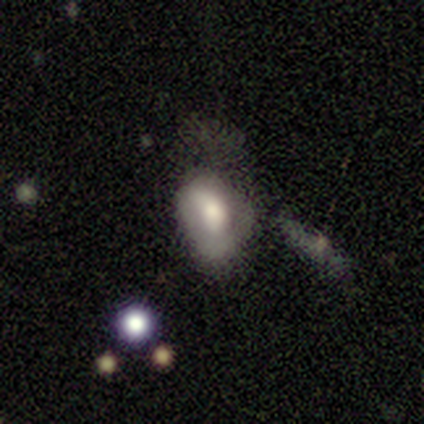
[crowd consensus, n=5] A smooth galaxy with no disk features (80%) that is in between round and cigar-shaped (100%). Merging: minor disturbance (40%).